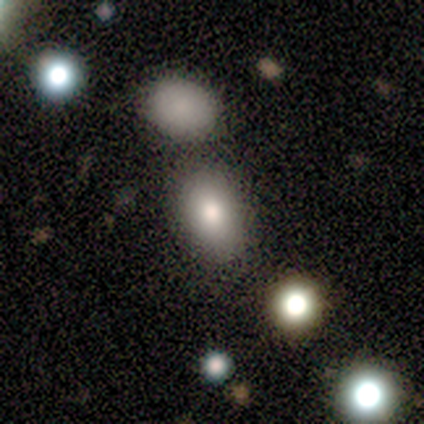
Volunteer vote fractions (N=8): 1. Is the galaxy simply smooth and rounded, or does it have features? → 75% smooth, 12% featured or disk, 12% star or artifact.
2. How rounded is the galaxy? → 67% in between, 33% round, 0% cigar-shaped.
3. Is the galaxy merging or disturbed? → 57% none, 43% minor disturbance, 0% major disturbance, 0% merger.